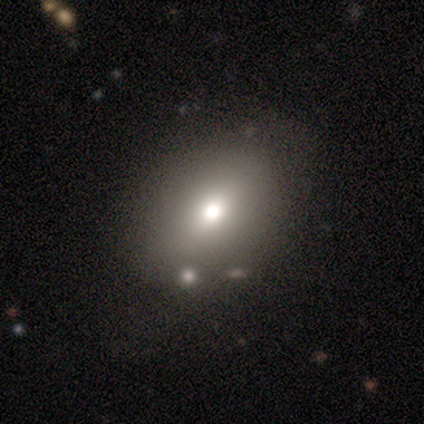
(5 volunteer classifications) smooth_or_featured: smooth (p=0.60) [alt: featured or disk p=0.20]
how_rounded: in between (p=1.00)
merging: none (p=1.00)